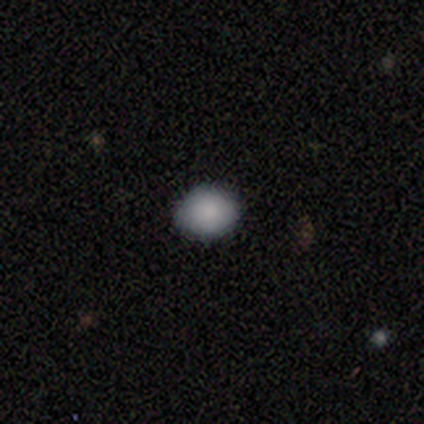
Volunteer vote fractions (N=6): Volunteers were most divided on "how rounded" (2-way tie): round: 50%, in between: 50%, cigar-shaped: 0%. More confident: smooth or featured — smooth (100%); merging — none (83%).